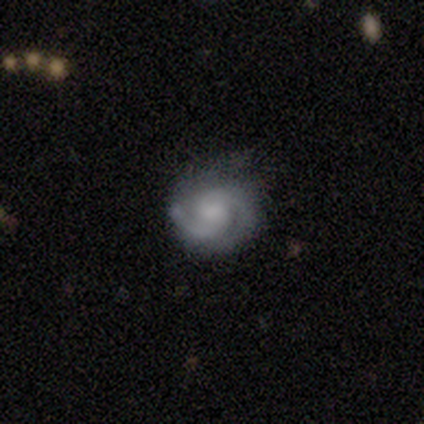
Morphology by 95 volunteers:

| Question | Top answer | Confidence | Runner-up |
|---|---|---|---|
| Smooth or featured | featured or disk | 85% | smooth (11%) |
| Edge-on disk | no | 98% | yes (2%) |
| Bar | no | 58% | weak (41%) |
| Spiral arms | yes | 99% | no (1%) |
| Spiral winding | tight | 47% | medium (42%) |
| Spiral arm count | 2 | 77% | can't tell (13%) |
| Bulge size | moderate | 35% | small (34%) |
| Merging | none | 77% | minor disturbance (16%) |